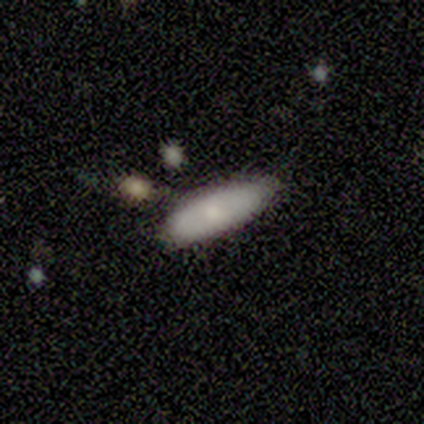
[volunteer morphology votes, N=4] Smooth or featured? 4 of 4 (100%) said smooth. How rounded? 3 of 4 (75%) said in between. Merging? 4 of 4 (100%) said none.